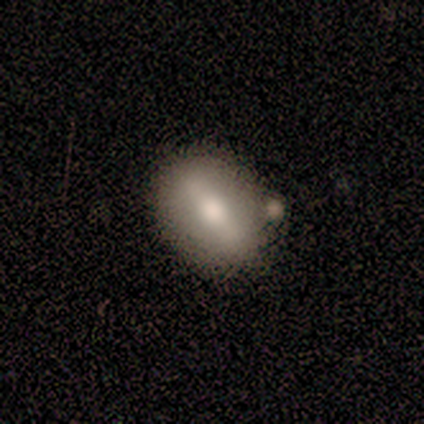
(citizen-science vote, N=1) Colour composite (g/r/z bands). It shows a featured or disk galaxy (100%) with a strong bar (100%), no spiral arms (100%) and a large central bulge (100%). Merging: none (100%).